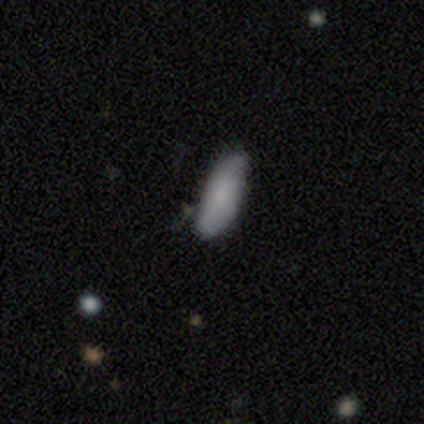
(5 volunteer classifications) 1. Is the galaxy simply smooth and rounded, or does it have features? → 100% smooth, 0% featured or disk, 0% star or artifact.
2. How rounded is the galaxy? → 60% in between, 20% round, 20% cigar-shaped.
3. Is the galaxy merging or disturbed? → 80% none, 20% merger, 0% minor disturbance, 0% major disturbance.